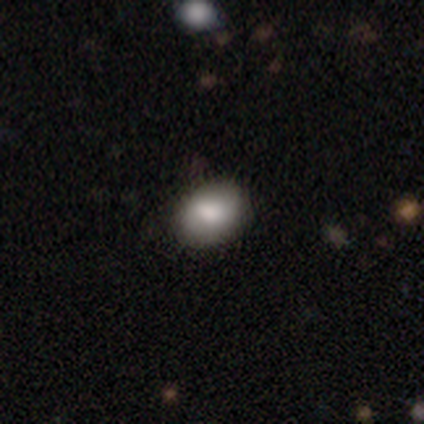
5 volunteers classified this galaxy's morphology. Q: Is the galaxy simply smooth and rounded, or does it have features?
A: smooth — 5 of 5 (100%).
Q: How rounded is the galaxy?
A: round — 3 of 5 (60%).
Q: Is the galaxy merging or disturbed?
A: none — 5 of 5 (100%).